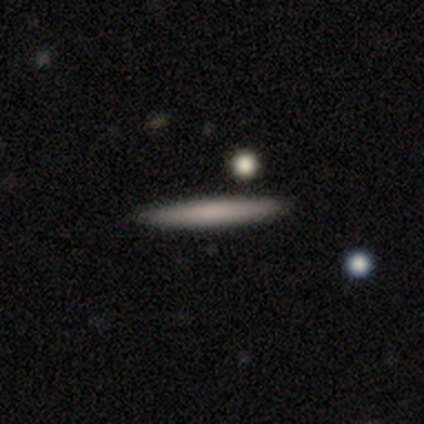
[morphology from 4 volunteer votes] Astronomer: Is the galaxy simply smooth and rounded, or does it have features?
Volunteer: smooth — 75%.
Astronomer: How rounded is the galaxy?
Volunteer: cigar-shaped — 100%.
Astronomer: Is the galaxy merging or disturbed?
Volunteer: none — 75%.